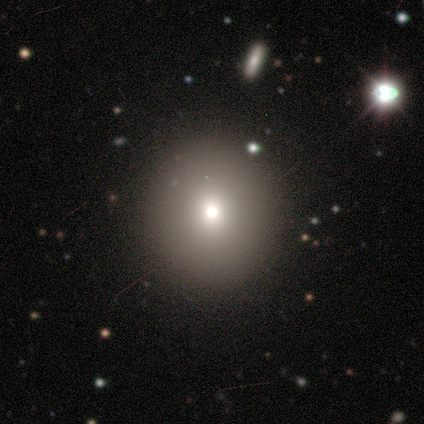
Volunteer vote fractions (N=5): Smooth or featured? smooth (80%)
How rounded? round (75%)
Merging? none (100%)